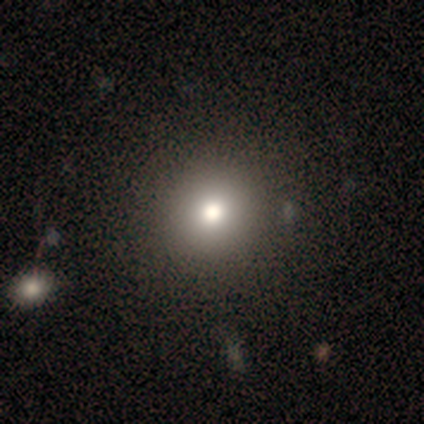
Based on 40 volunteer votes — A smooth galaxy with no disk features (80%) that is round (94%). Merging: none (69%).